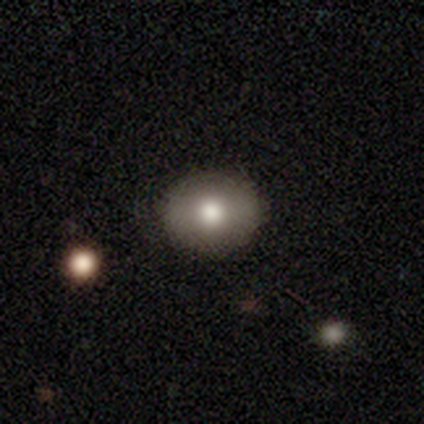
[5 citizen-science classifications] smooth 80%, featured or disk 20%, star or artifact 0%. Down the decision tree: how rounded — round (75%); merging — none (80%).